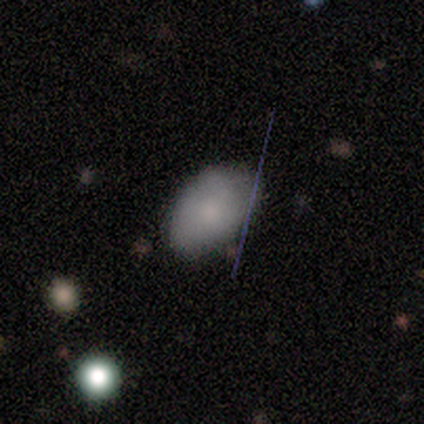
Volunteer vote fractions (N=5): smooth_or_featured: smooth (p=0.40) [tied with: featured or disk p=0.40]
how_rounded: in between (p=1.00)
merging: none (p=0.50) [tied with: minor disturbance p=0.50]